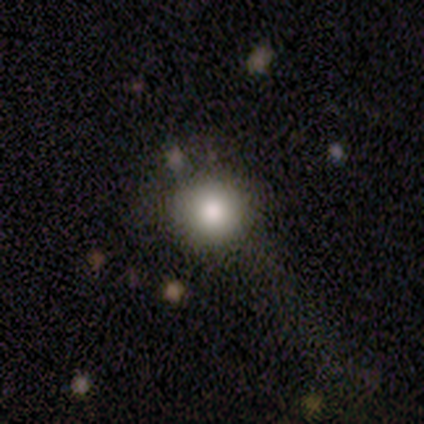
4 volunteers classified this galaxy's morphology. smooth 75%, featured or disk 25%, star or artifact 0%. Down the decision tree: how rounded — round (67%); merging — none (75%).